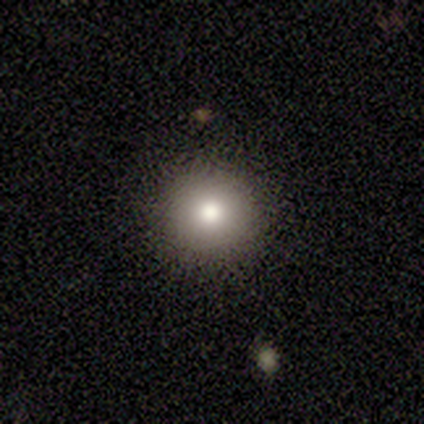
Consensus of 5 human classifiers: smooth 100%, featured or disk 0%, star or artifact 0%. Down the decision tree: how rounded — round (100%); merging — none (100%).